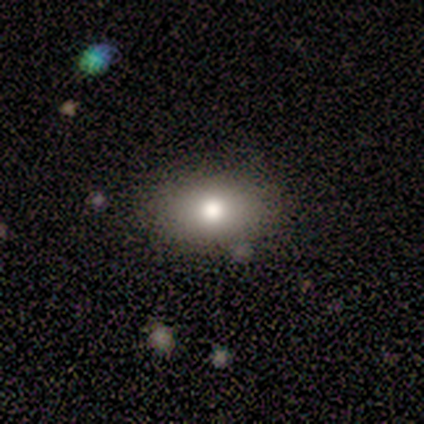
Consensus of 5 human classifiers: A smooth galaxy with no disk features (60%) that is in between round and cigar-shaped (67%). Merging: none (100%).